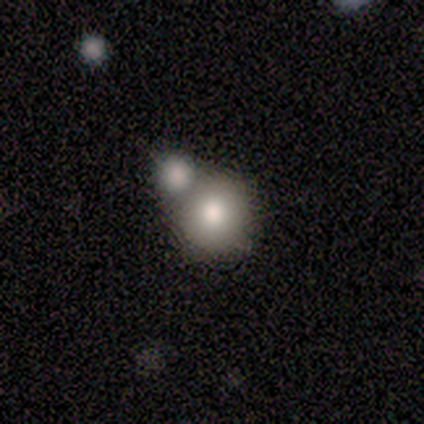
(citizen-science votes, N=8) smooth-or-featured: smooth: 100% | featured or disk: 0% | star or artifact: 0%
  how-rounded: round: 88% | in between: 12% | cigar-shaped: 0%
  merging: none: 38% (tied) | merger: 38% (tied) | minor disturbance: 25% | major disturbance: 0%